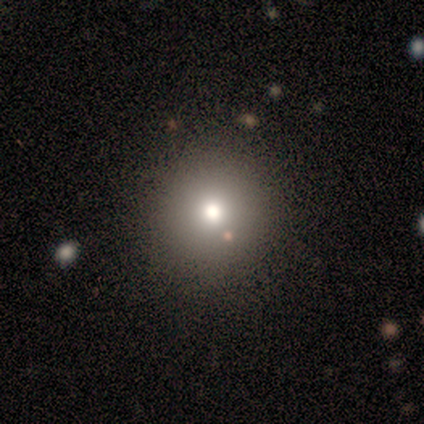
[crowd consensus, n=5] Morphology: type=smooth (80%); roundness=round (100%); merging=none (80%).